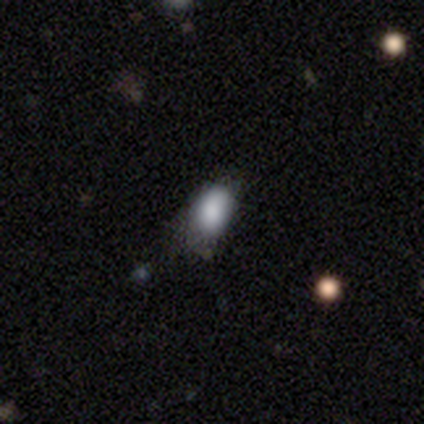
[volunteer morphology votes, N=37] smooth-or-featured: smooth: 76% | featured or disk: 19% | star or artifact: 5%
  how-rounded: in between: 82% | round: 14% | cigar-shaped: 4%
  merging: none: 46% | minor disturbance: 29% | major disturbance: 23% | merger: 3%